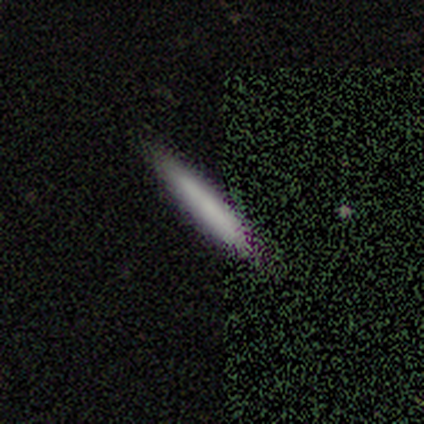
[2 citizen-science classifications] Smooth or featured: smooth — 50% (tied with star or artifact — 50%)
How rounded: cigar-shaped — 100%
Merging: none — 100%